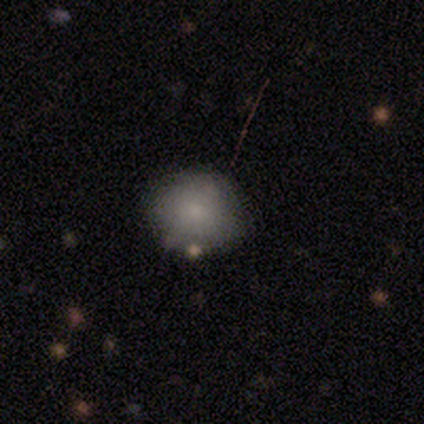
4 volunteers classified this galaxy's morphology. Smooth or featured? smooth (100%)
How rounded? round (100%)
Merging? none (100%)